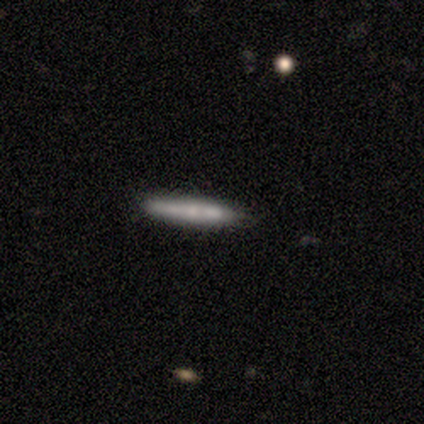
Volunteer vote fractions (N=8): A smooth galaxy with no disk features (62%) that is cigar-shaped (80%). Merging: none (88%).